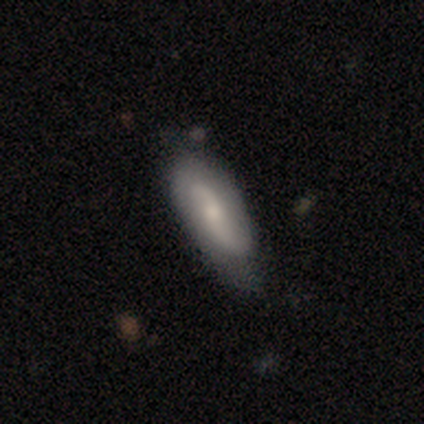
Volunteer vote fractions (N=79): Smooth or featured?
  - featured or disk: 57% *
  - smooth: 39%
  - star or artifact: 4%
Edge-on disk?
  - no: 89% *
  - yes: 11%
Bar?
  - no: 70% *
  - weak: 28%
  - strong: 2%
Spiral arms?
  - yes: 88% *
  - no: 12%
Spiral winding?
  - loose: 60% *
  - tight: 23%
  - medium: 17%
Spiral arm count?
  - 2: 100% *
  - 1: 0%
  - 3: 0%
  - 4: 0%
  - more than 4: 0%
  - can't tell: 0%
Bulge size?
  - small: 52% *
  - moderate: 38%
  - none: 10%
  - dominant: 0%
  - large: 0%
Merging?
  - none: 62% *
  - minor disturbance: 34%
  - major disturbance: 4%
  - merger: 0%